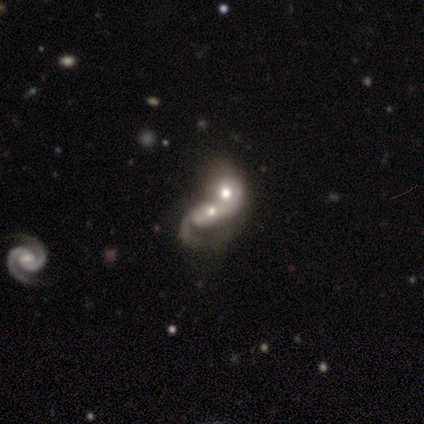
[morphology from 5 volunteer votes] A featured or disk galaxy (80%) with no bar (75%), 1 (50%, tied with can't tell) loose (100%) spiral arms (50%, tied with no) and a moderate central bulge (50%, tied with small). Merging: merger (60%).